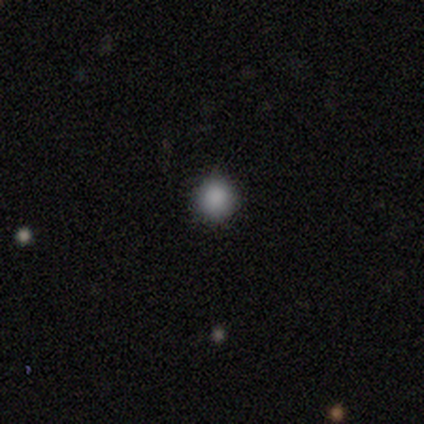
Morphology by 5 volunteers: Overall: smooth (80%). How rounded: round (100%). Merging: none (100%).